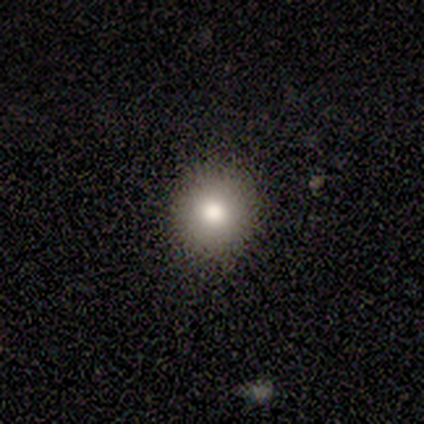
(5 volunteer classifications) This appears to be a featured or disk galaxy (60%) with no bar (100%), no spiral arms (100%) and a moderate central bulge (100%). Merging: none (80%).